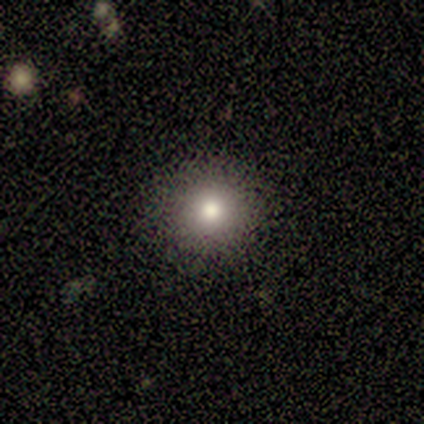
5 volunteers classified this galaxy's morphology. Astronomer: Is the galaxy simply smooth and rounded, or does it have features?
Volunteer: smooth — 80%.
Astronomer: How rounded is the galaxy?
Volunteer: round — 100%.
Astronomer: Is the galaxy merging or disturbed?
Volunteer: none — 100%.